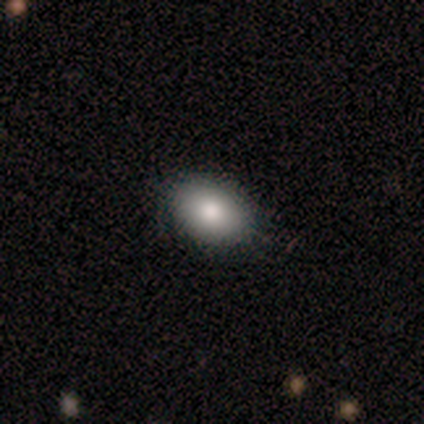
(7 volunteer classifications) Smooth or featured? 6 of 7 (86%) said smooth. How rounded? 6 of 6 (100%) said in between. Merging? 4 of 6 (67%) said none.